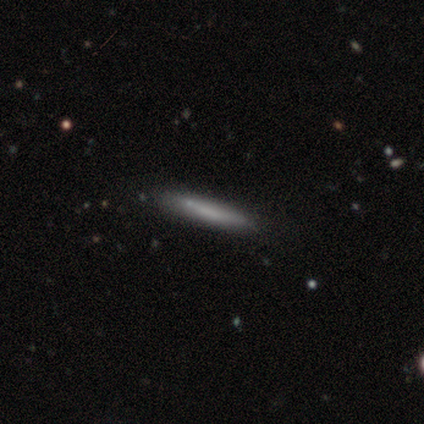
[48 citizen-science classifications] Smooth or featured: smooth — 67% (featured or disk — 27%)
How rounded: cigar-shaped — 91% (in between — 9%)
Merging: none — 78% (minor disturbance — 20%)